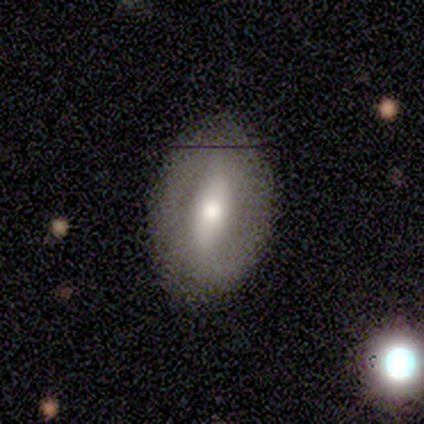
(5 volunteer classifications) This appears to be a smooth galaxy with no disk features (60%) that is in between round and cigar-shaped (67%). Merging: none (100%).